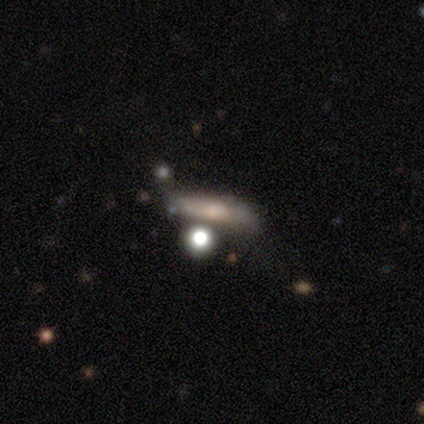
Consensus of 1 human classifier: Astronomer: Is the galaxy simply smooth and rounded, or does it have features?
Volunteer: smooth — 100%.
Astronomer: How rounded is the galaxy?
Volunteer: in between — 100%.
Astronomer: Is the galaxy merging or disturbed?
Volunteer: major disturbance — 100%.